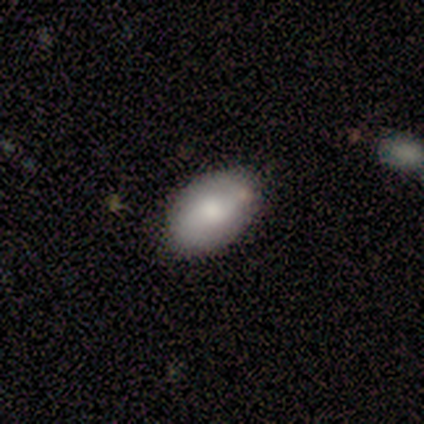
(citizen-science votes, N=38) smooth-or-featured: smooth: 68% | featured or disk: 24% | star or artifact: 8%
  how-rounded: in between: 88% | round: 12% | cigar-shaped: 0%
  merging: none: 69% | minor disturbance: 29% | major disturbance: 3% | merger: 0%